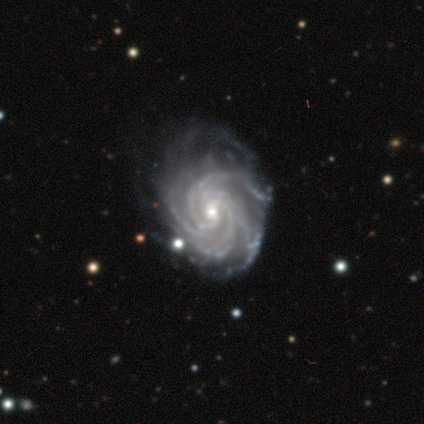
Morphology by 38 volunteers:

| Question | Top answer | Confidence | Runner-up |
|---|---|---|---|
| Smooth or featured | featured or disk | 95% | smooth (3%) |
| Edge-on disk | no | 100% | — |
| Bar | no | 53% | weak (31%) |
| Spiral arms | yes | 100% | — |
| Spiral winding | tight | 69% | medium (31%) |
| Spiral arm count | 4 | 56% | more than 4 (28%) |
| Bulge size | moderate | 53% | small (44%) |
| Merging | none | 49% | tied: minor disturbance (49%) |